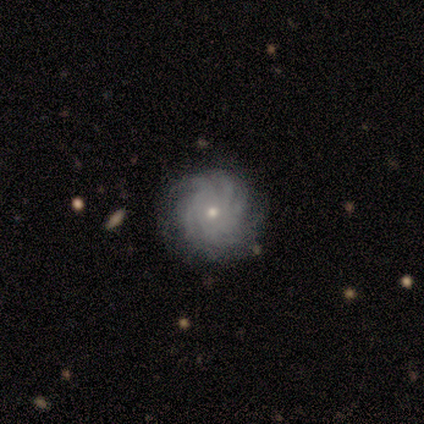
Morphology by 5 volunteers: type=featured or disk (60%); edge-on=no (100%); bar=no (67%); spiral arms=yes (100%); winding=tight (100%); arm count=more than 4 (67%); bulge=small (67%); merging=none (100%).